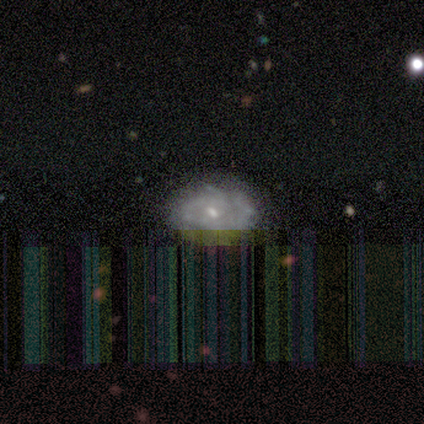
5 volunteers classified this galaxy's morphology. type=smooth (40%, tied with featured or disk); roundness=round (50%, tied with in between); merging=none (75%).